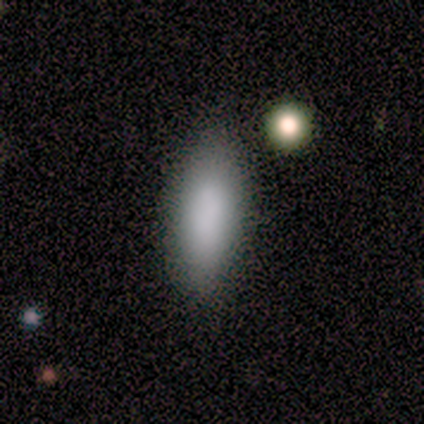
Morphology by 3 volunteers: A smooth galaxy with no disk features (100%) that is in between round and cigar-shaped (67%).

Vote fractions:
- Smooth or featured? smooth: 100% / featured or disk: 0% / star or artifact: 0%
- How rounded? in between: 67% / cigar-shaped: 33% / round: 0%
- Merging? none: 67% / minor disturbance: 33% / major disturbance: 0% / merger: 0%